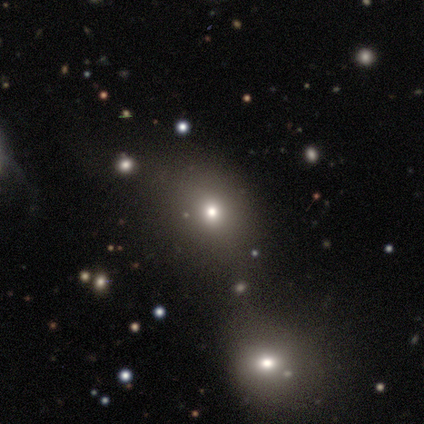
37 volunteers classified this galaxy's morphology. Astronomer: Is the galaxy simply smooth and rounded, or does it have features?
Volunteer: smooth — 51% (runner-up: star or artifact, 41%).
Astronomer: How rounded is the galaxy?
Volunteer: round — 63%.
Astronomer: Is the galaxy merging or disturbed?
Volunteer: none — 59%.